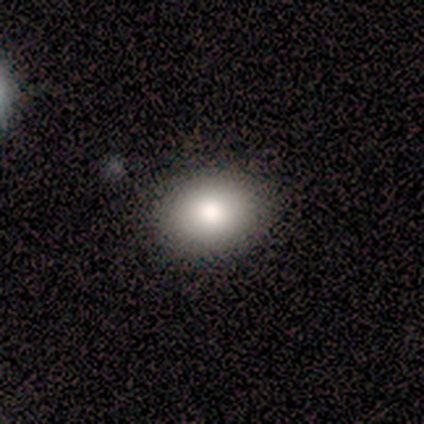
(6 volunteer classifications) A smooth galaxy with no disk features (100%) that is in between round and cigar-shaped (83%).

Vote fractions:
- Smooth or featured? smooth: 100% / featured or disk: 0% / star or artifact: 0%
- How rounded? in between: 83% / round: 17% / cigar-shaped: 0%
- Merging? none: 100% / minor disturbance: 0% / major disturbance: 0% / merger: 0%